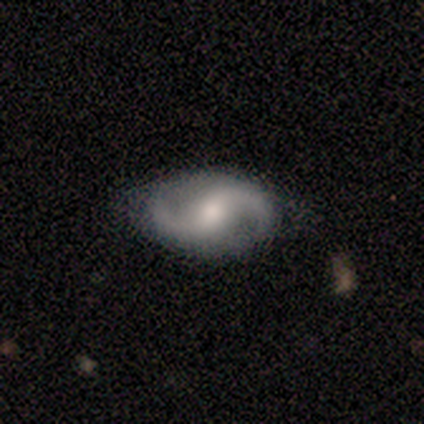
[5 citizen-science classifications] Q: Smooth or featured?
A: featured or disk (60%); runner-up: smooth (40%)
Q: Edge-on disk?
A: no (100%)
Q: Bar?
A: no (100%)
Q: Spiral arms?
A: yes (100%)
Q: Spiral winding?
A: loose (67%); runner-up: tight (33%)
Q: Spiral arm count?
A: 1 (67%); runner-up: 2 (33%)
Q: Bulge size?
A: small (100%)
Q: Merging?
A: none (80%); runner-up: minor disturbance (20%)